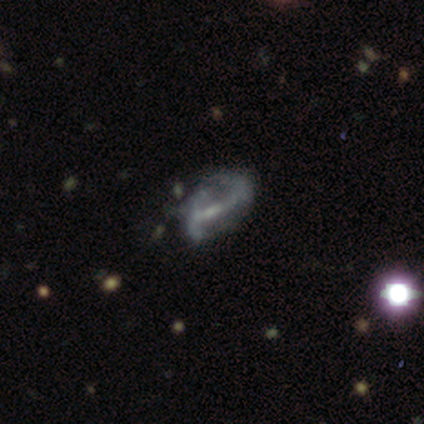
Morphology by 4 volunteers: A smooth galaxy with no disk features (50%) that is in between round and cigar-shaped (100%). Merging: minor disturbance (33%, tied with major disturbance and merger).